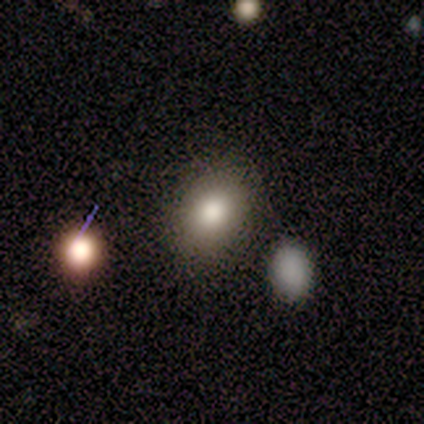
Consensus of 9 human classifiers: smooth-or-featured: smooth: 89% | star or artifact: 11% | featured or disk: 0%
  how-rounded: in between: 88% | round: 12% | cigar-shaped: 0%
  merging: none: 75% | minor disturbance: 25% | major disturbance: 0% | merger: 0%